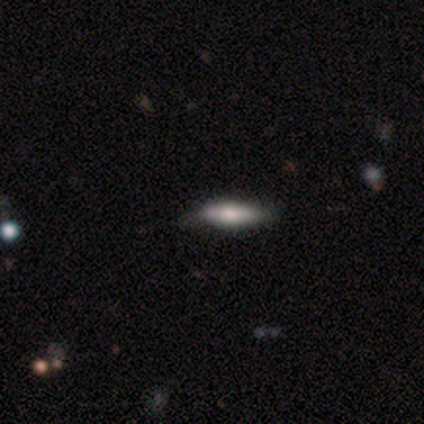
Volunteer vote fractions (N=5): Smooth or featured: smooth — 60% (featured or disk — 40%)
How rounded: in between — 67% (cigar-shaped — 33%)
Merging: none — 80% (minor disturbance — 20%)